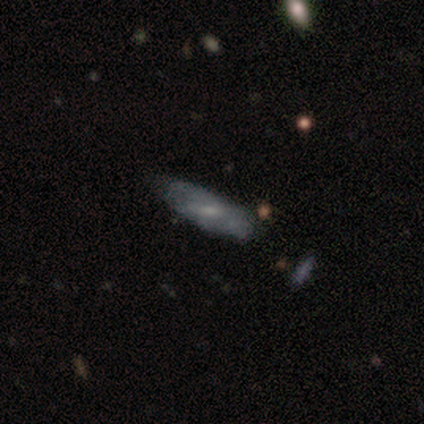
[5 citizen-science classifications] Morphology: type=featured or disk (60%); edge-on=no (100%); bar=weak (67%); spiral arms=yes (100%); winding=tight (67%); arm count=can't tell (100%); bulge=moderate (67%); merging=minor disturbance (60%).